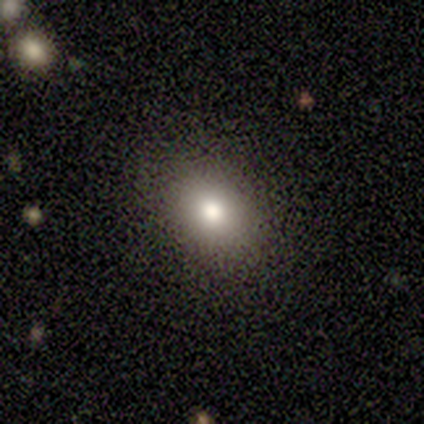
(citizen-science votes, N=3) smooth-or-featured: smooth: 67% | featured or disk: 33% | star or artifact: 0%
  how-rounded: round: 50% (tied) | in between: 50% (tied) | cigar-shaped: 0%
  merging: none: 100% | minor disturbance: 0% | major disturbance: 0% | merger: 0%